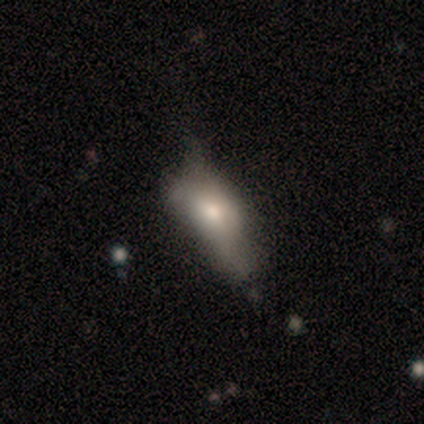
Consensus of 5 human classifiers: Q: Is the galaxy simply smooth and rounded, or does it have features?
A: smooth — 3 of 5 (60%).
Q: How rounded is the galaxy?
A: in between — 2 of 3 (67%).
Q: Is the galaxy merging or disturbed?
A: minor disturbance — 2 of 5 (40%, tied with major disturbance).